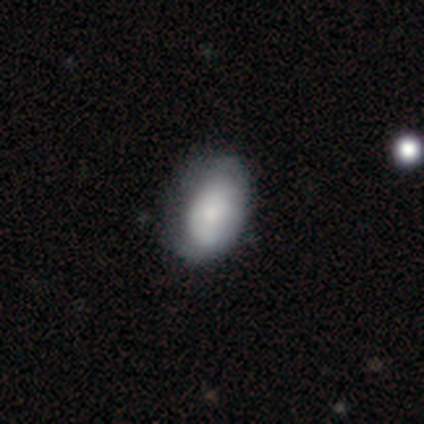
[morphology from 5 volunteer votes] A featured or disk galaxy (60%) with no bar (100%), no spiral arms (100%) and a moderate central bulge (67%). Merging: none (80%).